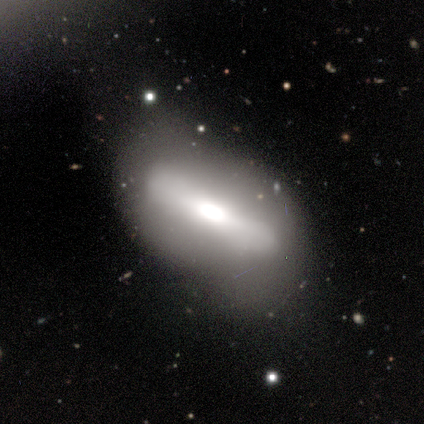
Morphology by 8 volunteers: Smooth or featured? smooth (62%)
How rounded? in between (80%)
Merging? minor disturbance (50%)